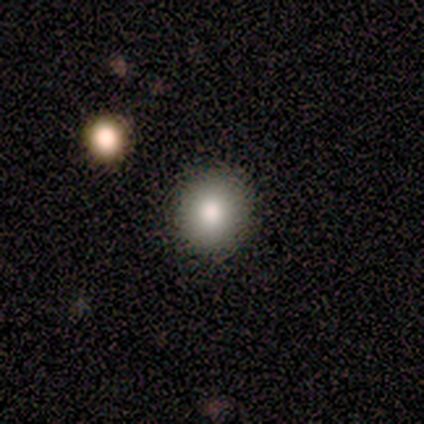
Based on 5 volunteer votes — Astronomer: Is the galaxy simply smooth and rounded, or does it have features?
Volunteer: smooth — 80%.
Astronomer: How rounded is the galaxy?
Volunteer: round — 100%.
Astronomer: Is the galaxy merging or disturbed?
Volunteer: none — 100%.